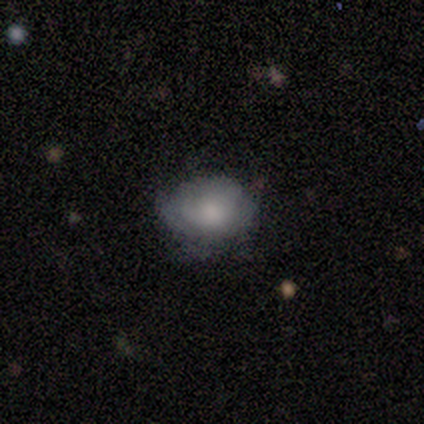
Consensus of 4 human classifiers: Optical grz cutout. It shows a smooth galaxy with no disk features (100%) that is in between round and cigar-shaped (75%). Merging: none (50%).